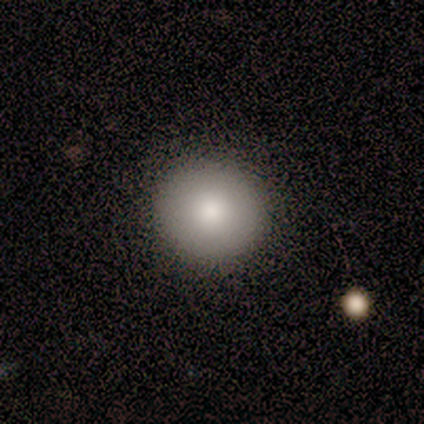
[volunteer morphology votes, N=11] smooth 91%, featured or disk 9%, star or artifact 0%. Down the decision tree: how rounded — round (100%); merging — none (82%).